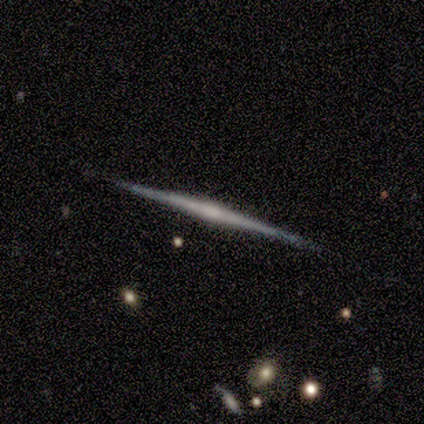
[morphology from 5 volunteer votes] This appears to be a featured or disk galaxy (80%) viewed edge-on (100%) with a rounded central bulge (75%). Merging: none (80%).